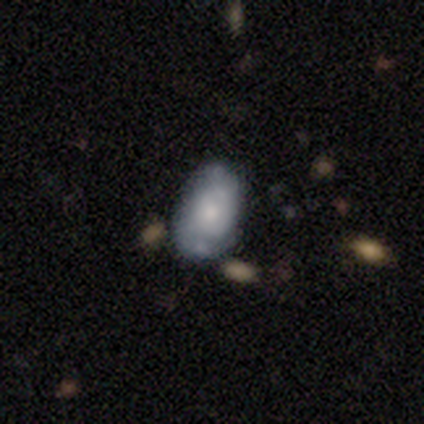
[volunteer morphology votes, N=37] smooth-or-featured: smooth: 57% | featured or disk: 38% | star or artifact: 5%
  how-rounded: in between: 86% | round: 10% | cigar-shaped: 5%
  merging: none: 66% | minor disturbance: 26% | major disturbance: 6% | merger: 3%